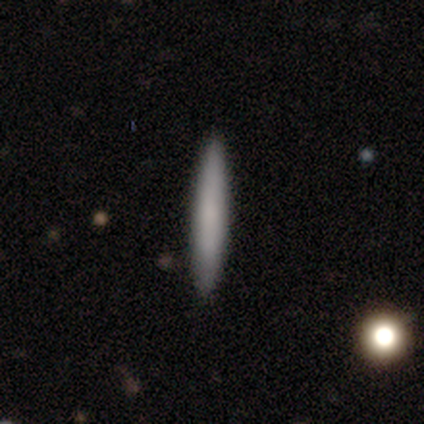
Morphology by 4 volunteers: type=smooth (75%); roundness=cigar-shaped (100%); merging=none (75%).